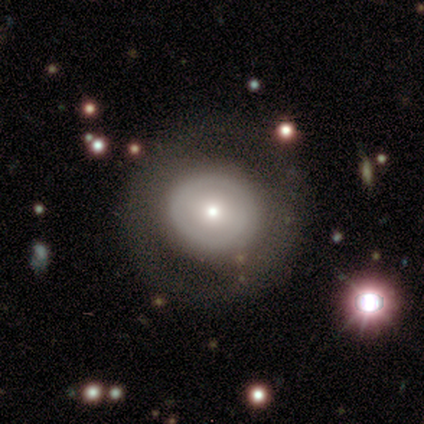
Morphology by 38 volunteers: This appears to be a smooth galaxy with no disk features (47%) that is round (83%). Merging: none (97%).